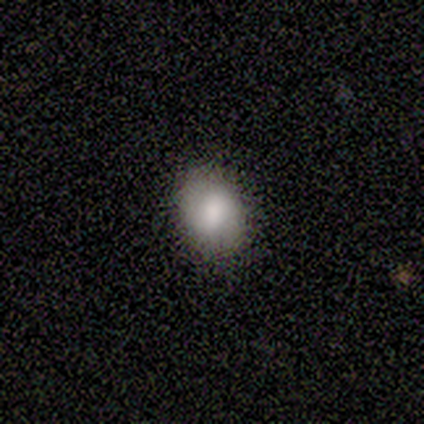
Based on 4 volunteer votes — Volunteers were most divided on "how rounded" (2-way tie): round: 50%, in between: 50%, cigar-shaped: 0%. More confident: smooth or featured — smooth (100%); merging — none (75%).